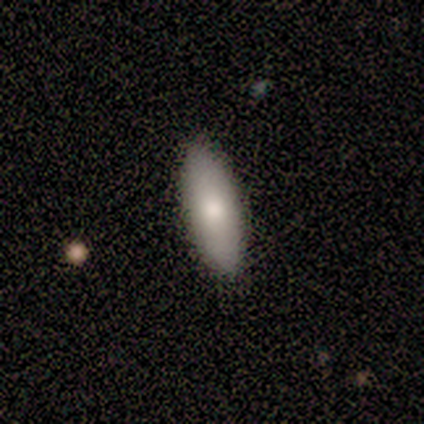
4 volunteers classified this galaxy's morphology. type=smooth (75%); roundness=in between (100%); merging=none (67%).